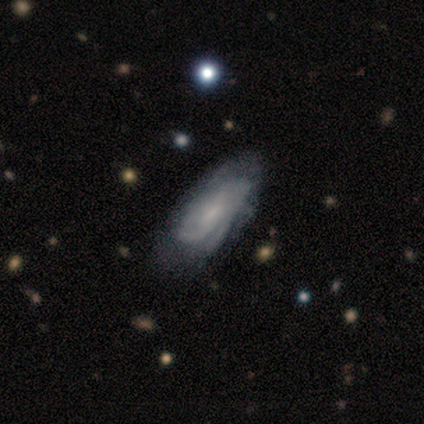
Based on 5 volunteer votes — This appears to be a featured or disk galaxy (60%) with a weak bar (67%), 2 (50%, tied with can't tell) tight (50%, tied with medium) spiral arms (67%) and no central bulge (67%). Merging: none (60%).